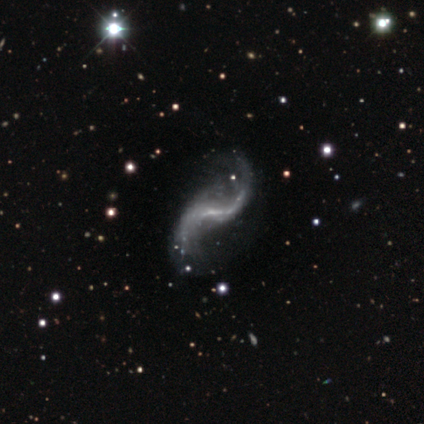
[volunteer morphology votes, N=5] This appears to be a featured or disk galaxy (100%) with a weak bar (80%), 2 (100%) loose (100%) spiral arms (100%) and a small central bulge (60%). Merging: none (40%, tied with minor disturbance).